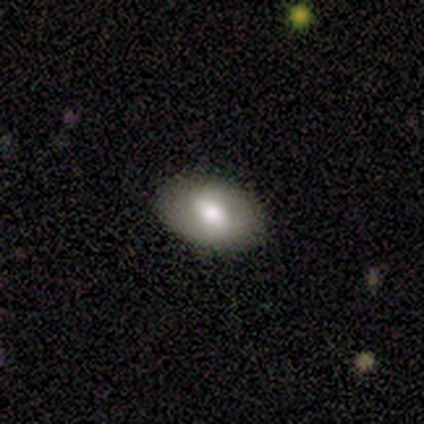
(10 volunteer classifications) smooth-or-featured: smooth: 70% | featured or disk: 20% | star or artifact: 10%
  how-rounded: in between: 86% | round: 14% | cigar-shaped: 0%
  merging: none: 67% | major disturbance: 22% | minor disturbance: 11% | merger: 0%